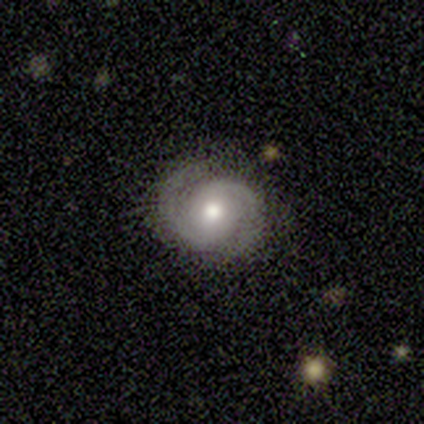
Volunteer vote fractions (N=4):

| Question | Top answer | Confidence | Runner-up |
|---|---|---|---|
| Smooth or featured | featured or disk | 100% | — |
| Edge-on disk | no | 75% | yes (25%) |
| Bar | no | 100% | — |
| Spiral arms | yes | 100% | — |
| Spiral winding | medium | 67% | tight (33%) |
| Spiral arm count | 2 | 100% | — |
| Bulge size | moderate | 100% | — |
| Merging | none | 100% | — |